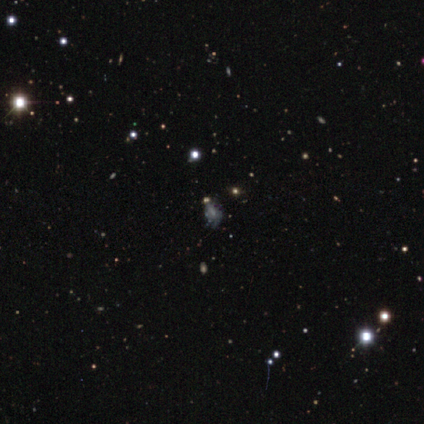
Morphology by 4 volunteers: Smooth or featured? featured or disk (75%)
Edge-on disk? no (100%)
Bar? no (100%)
Spiral arms? yes (67%)
Spiral winding? medium (100%)
Spiral arm count? can't tell (100%)
Bulge size? small (100%)
Merging? none (67%)